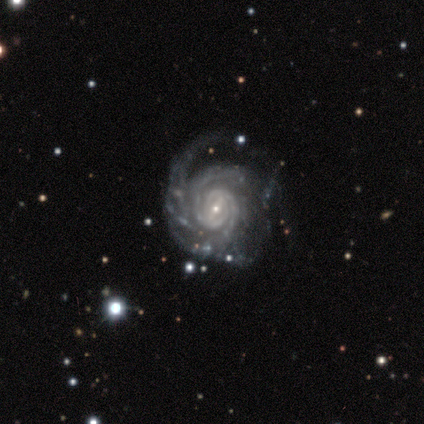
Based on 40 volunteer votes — Smooth or featured?
  - featured or disk: 95% *
  - smooth: 2%
  - star or artifact: 2%
Edge-on disk?
  - no: 100% *
  - yes: 0%
Bar?
  - strong: 39% *
  - weak: 37%
  - no: 24%
Spiral arms?
  - yes: 100% *
  - no: 0%
Spiral winding?
  - tight: 74% *
  - medium: 24%
  - loose: 3%
Spiral arm count?
  - 2: 29% *
  - 3: 26%
  - can't tell: 18%
  - 4: 16%
  - 1: 5%
  - more than 4: 5%
Bulge size?
  - small: 74% *
  - moderate: 26%
  - dominant: 0%
  - large: 0%
  - none: 0%
Merging?
  - none: 51% *
  - major disturbance: 31%
  - minor disturbance: 15%
  - merger: 3%